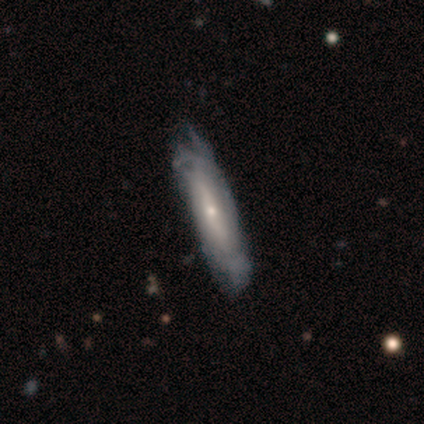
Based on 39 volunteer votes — Overall: featured or disk (79%). Edge-on disk: no (61%; yes 39%). Bar: no (53%; weak 26%). Spiral arms: yes (68%; no 32%). Spiral arm count: can't tell (62%; 3 23%). Spiral winding: tight (46%; medium 31%). Bulge size: small (58%; moderate 37%). Merging: none (39%; minor disturbance 21%).